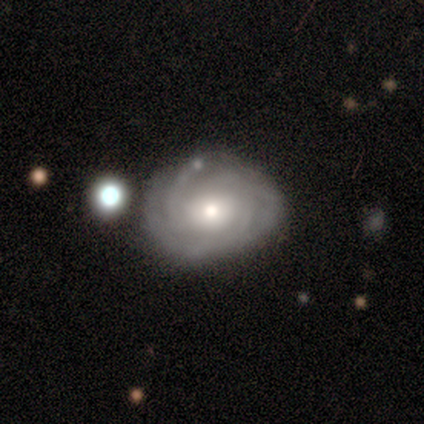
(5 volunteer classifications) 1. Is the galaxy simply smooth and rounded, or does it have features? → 100% featured or disk, 0% smooth, 0% star or artifact.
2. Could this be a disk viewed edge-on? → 100% no, 0% yes.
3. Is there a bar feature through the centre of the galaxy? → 60% no, 40% weak, 0% strong.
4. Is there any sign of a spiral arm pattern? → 100% yes, 0% no.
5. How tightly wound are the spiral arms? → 100% tight, 0% medium, 0% loose.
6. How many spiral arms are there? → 60% 3, 40% can't tell, 0% 1, 0% 2, 0% 4, 0% more than 4.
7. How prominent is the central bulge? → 60% moderate, 20% large, 20% small, 0% dominant, 0% none.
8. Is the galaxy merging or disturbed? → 100% none, 0% minor disturbance, 0% major disturbance, 0% merger.